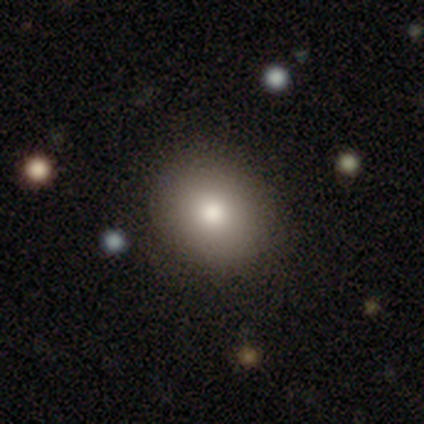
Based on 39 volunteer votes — smooth_or_featured: smooth (p=0.74) [alt: featured or disk p=0.15]
how_rounded: round (p=0.83) [alt: in between p=0.17]
merging: none (p=0.80) [alt: minor disturbance p=0.14]